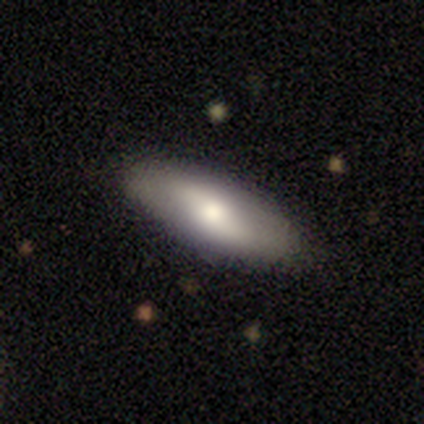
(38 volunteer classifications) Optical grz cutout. It shows a smooth galaxy with no disk features (50%) that is in between round and cigar-shaped (74%). Merging: none (85%).